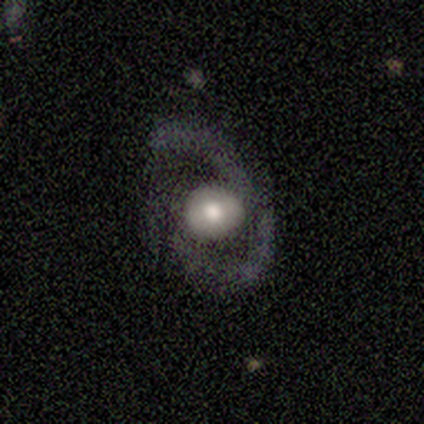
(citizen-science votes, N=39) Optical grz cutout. It shows a featured or disk galaxy (72%) with no bar (62%), 2 (80%) medium (67%) spiral arms (58%) and a large central bulge (42%). Merging: none (61%).